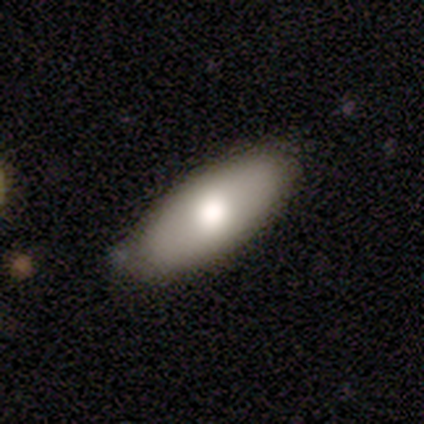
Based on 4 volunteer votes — Morphology: type=smooth (75%); roundness=in between (100%); merging=none (75%).